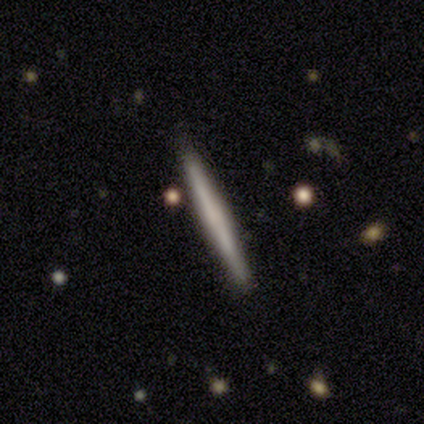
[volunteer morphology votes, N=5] type=featured or disk (60%); edge-on=yes (100%); edge-on bulge=none (67%); merging=none (80%).